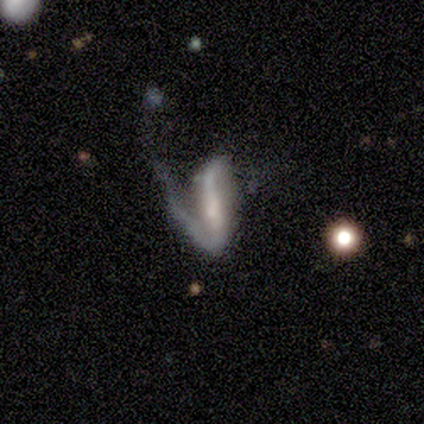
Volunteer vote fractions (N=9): This is clearly a featured or disk galaxy (89%). It is clearly not viewed edge-on (88%). Bar: possibly strong (57%). Spiral arm pattern: clearly yes (100%). Spiral arm count: likely 2 (71%). Spiral winding: possibly loose (57%). Central bulge: possibly moderate (57%). Merging: possibly major disturbance (56%).